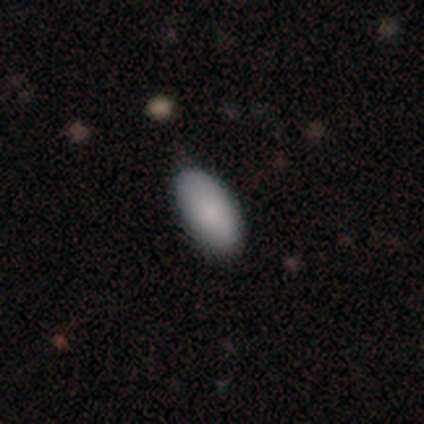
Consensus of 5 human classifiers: Smooth or featured? smooth (100%)
How rounded? in between (100%)
Merging? none (100%)